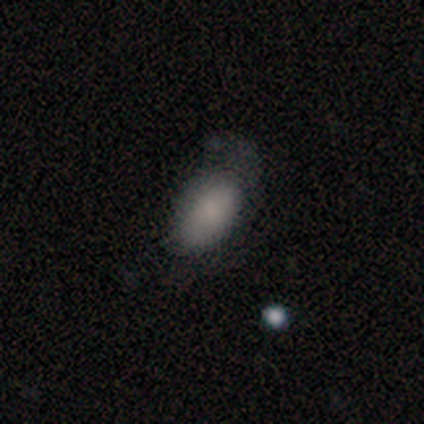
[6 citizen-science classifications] This appears to be a smooth galaxy with no disk features (83%) that is in between round and cigar-shaped (100%). Merging: major disturbance (50%).